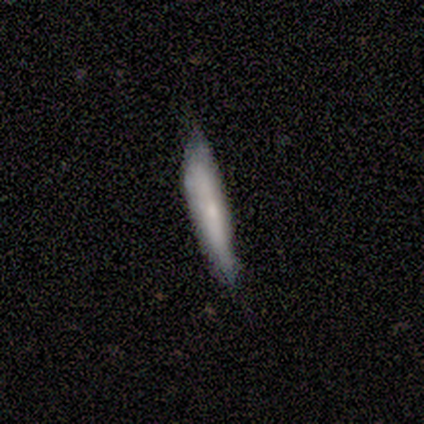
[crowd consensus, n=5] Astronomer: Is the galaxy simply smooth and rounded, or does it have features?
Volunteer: smooth — 60% (runner-up: featured or disk, 40%).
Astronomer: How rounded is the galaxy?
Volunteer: cigar-shaped — 100%.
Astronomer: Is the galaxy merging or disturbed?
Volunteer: none — 40%, tied with major disturbance at 40%.